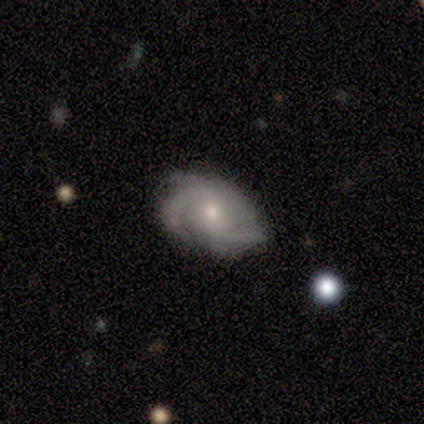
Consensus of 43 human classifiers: A featured or disk galaxy (91%) with no bar (47%), 2 (47%) medium (55%) spiral arms (100%) and a small central bulge (55%).

Vote fractions:
- Smooth or featured? featured or disk: 91% / smooth: 5% / star or artifact: 5%
- Edge-on disk? no: 97% / yes: 3%
- Bar? no: 47% / weak: 45% / strong: 8%
- Spiral arms? yes: 100% / no: 0%
- Spiral winding? medium: 55% / tight: 34% / loose: 11%
- Spiral arm count? 2: 47% / 3: 29% / can't tell: 11% / 1: 8% / 4: 5% / more than 4: 0%
- Bulge size? small: 55% / moderate: 42% / large: 3% / dominant: 0% / none: 0%
- Merging? none: 49% / minor disturbance: 32% / major disturbance: 17% / merger: 2%